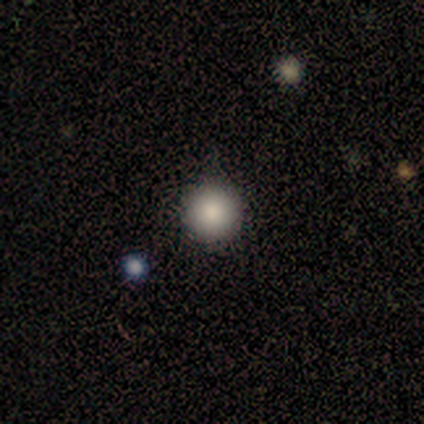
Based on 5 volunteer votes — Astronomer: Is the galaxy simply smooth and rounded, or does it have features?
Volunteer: smooth — 100%.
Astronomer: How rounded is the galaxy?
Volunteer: round — 100%.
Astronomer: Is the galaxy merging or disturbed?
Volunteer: none — 100%.